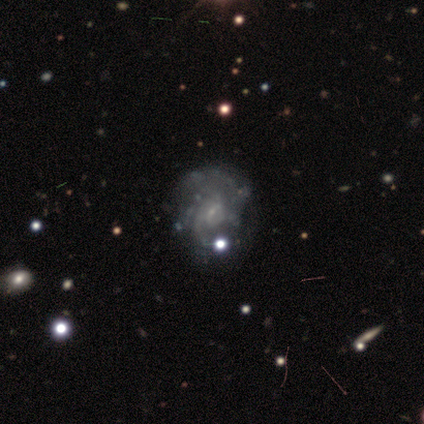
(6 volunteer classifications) Smooth or featured? 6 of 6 (100%) said featured or disk. Edge-on disk? 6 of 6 (100%) said no. Bar? 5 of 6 (83%) said no. Spiral arms? 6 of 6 (100%) said yes. Spiral winding? 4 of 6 (67%) said loose. Spiral arm count? 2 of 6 (33%, tied with 2) said 1. Bulge size? 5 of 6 (83%) said small. Merging? 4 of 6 (67%) said none.